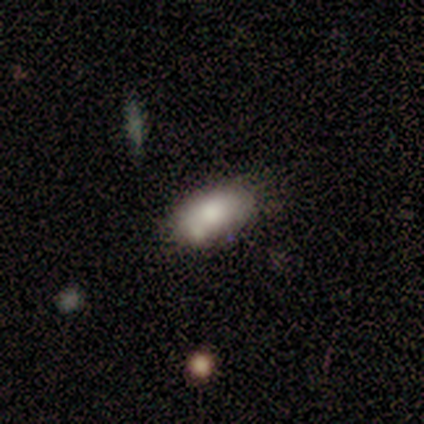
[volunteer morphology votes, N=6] type=smooth (50%); roundness=in between (100%); merging=none (40%, tied with merger).